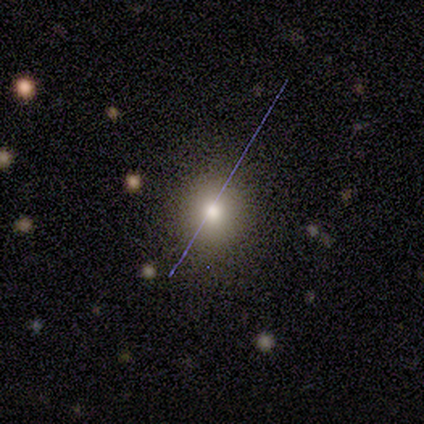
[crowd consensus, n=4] Smooth or featured?
  - smooth: 75% *
  - star or artifact: 25%
  - featured or disk: 0%
How rounded?
  - round: 100% *
  - in between: 0%
  - cigar-shaped: 0%
Merging?
  - none: 100% *
  - minor disturbance: 0%
  - major disturbance: 0%
  - merger: 0%